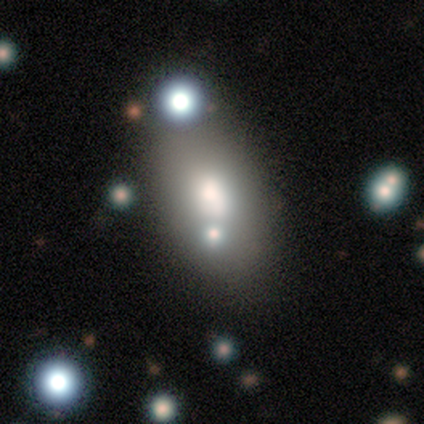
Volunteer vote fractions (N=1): Consensus on every question: smooth or featured — featured or disk (100%); edge-on disk — no (100%); bar — no (100%); spiral arms — no (100%); bulge size — large (100%); merging — minor disturbance (100%).